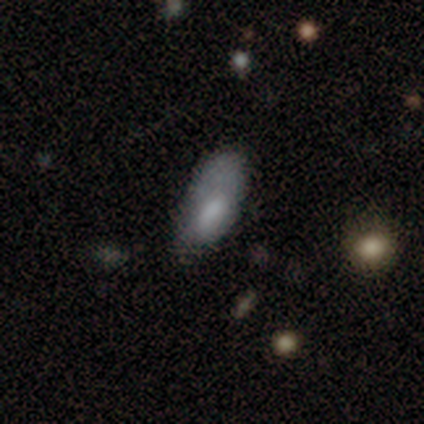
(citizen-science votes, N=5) Smooth or featured?
  - smooth: 100% *
  - featured or disk: 0%
  - star or artifact: 0%
How rounded?
  - in between: 80% *
  - cigar-shaped: 20%
  - round: 0%
Merging?
  - minor disturbance: 80% *
  - none: 20%
  - major disturbance: 0%
  - merger: 0%